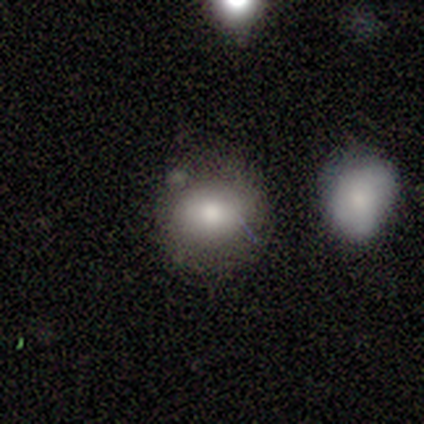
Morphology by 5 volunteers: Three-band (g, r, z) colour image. It shows a smooth galaxy with no disk features (100%) that is round (60%). Merging: none (60%).